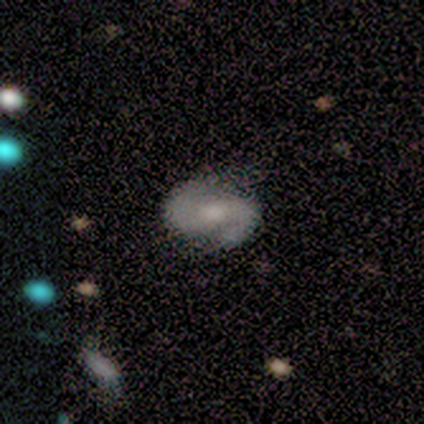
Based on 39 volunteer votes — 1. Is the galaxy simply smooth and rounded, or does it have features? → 74% featured or disk, 21% smooth, 5% star or artifact.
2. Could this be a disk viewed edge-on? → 93% no, 7% yes.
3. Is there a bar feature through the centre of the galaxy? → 52% weak, 26% no, 22% strong.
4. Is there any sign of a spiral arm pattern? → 93% yes, 7% no.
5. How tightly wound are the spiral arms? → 48% medium, 28% tight, 24% loose.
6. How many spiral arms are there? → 96% 2, 4% can't tell, 0% 1, 0% 3, 0% 4, 0% more than 4.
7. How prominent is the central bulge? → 48% moderate, 37% small, 7% large, 7% none, 0% dominant.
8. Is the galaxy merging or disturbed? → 78% none, 11% minor disturbance, 11% major disturbance, 0% merger.